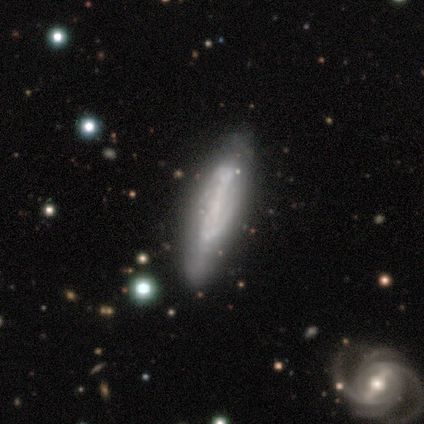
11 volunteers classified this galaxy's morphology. Volunteers were most divided on "spiral winding" (3-way tie): tight: 33%, medium: 33%, loose: 33%; "bulge size" (2-way tie): small: 43%, none: 43%, moderate: 14%, dominant: 0%, large: 0%. Remaining: edge-on disk — no (88%); spiral arms — yes (86%); smooth or featured — featured or disk (73%); merging — none (73%); spiral arm count — 2 (50%); bar — strong (43%).